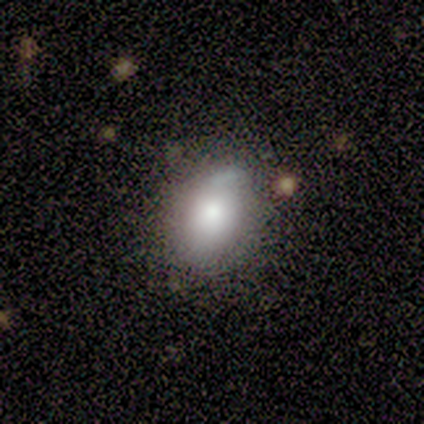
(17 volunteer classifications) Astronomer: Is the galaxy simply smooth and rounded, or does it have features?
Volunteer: smooth — 76%.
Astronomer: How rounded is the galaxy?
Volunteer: in between — 77%.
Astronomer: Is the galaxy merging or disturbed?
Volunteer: none — 50% (runner-up: minor disturbance, 43%).